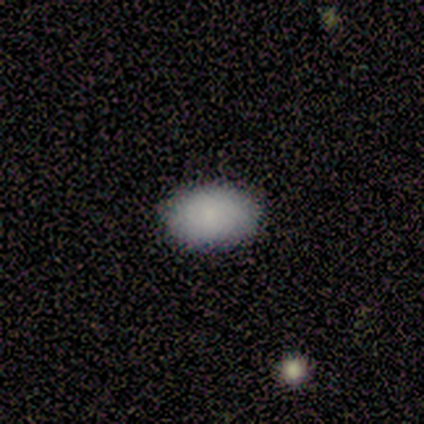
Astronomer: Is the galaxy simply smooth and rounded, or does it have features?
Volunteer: smooth — 100%.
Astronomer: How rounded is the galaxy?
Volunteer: in between — 80%.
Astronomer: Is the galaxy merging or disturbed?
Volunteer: none — 100%.